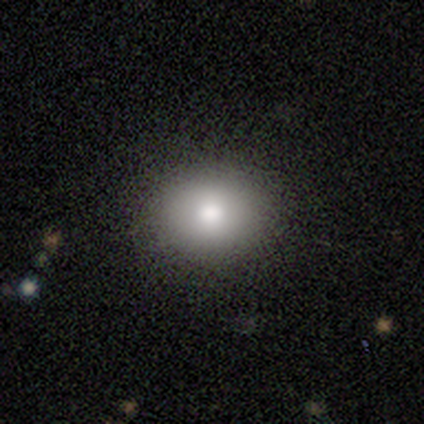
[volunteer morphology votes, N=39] Overall: smooth (85%). How rounded: round (64%; in between 36%). Merging: none (68%).